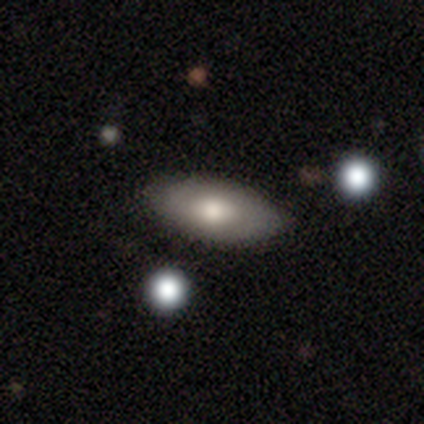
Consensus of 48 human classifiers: Smooth or featured?
  - smooth: 77% *
  - featured or disk: 15%
  - star or artifact: 8%
How rounded?
  - in between: 97% *
  - cigar-shaped: 3%
  - round: 0%
Merging?
  - none: 82% *
  - minor disturbance: 16%
  - major disturbance: 2%
  - merger: 0%